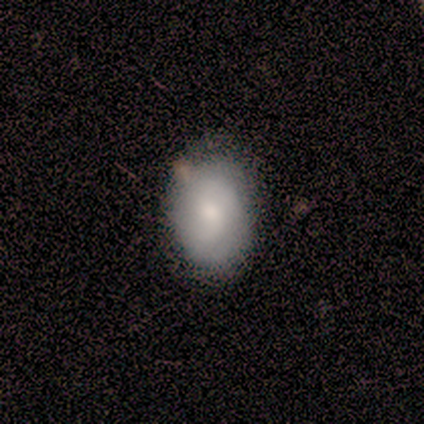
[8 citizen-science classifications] Smooth or featured? 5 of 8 (62%) said featured or disk. Edge-on disk? 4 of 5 (80%) said no. Bar? 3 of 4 (75%) said weak. Spiral arms? 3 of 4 (75%) said yes. Spiral winding? 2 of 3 (67%) said medium. Spiral arm count? 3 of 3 (100%) said 2. Bulge size? 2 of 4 (50%) said large. Merging? 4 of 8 (50%) said none.